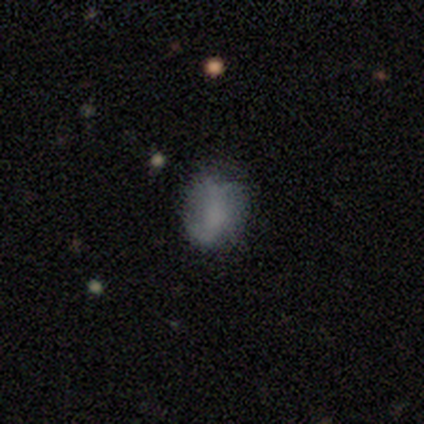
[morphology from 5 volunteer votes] A smooth galaxy with no disk features (40%, tied with star or artifact) that is in between round and cigar-shaped (100%). Merging: none (100%).